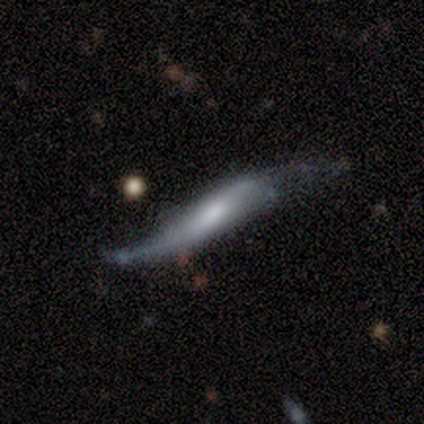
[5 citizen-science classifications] Morphology: type=featured or disk (80%); edge-on=yes (75%); edge-on bulge=boxy (67%); merging=none (60%).